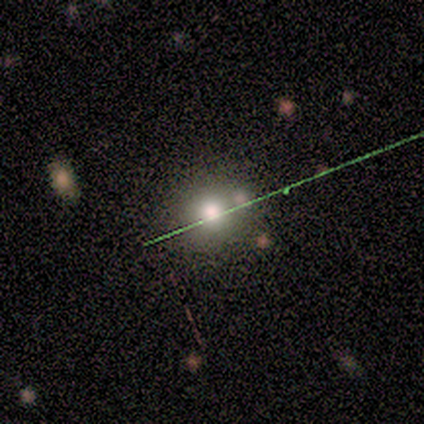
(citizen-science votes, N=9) Smooth or featured? 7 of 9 (78%) said smooth. How rounded? 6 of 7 (86%) said round. Merging? 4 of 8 (50%) said none.